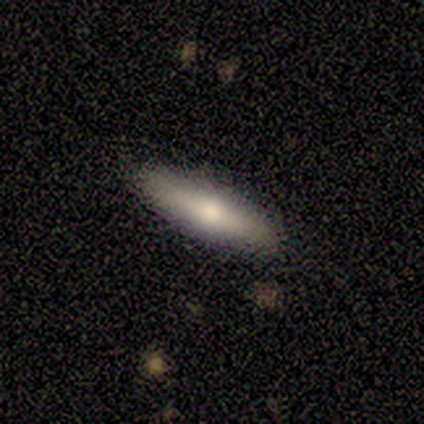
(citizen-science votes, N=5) Smooth or featured: smooth — 100%
How rounded: cigar-shaped — 60% (in between — 40%)
Merging: none — 100%